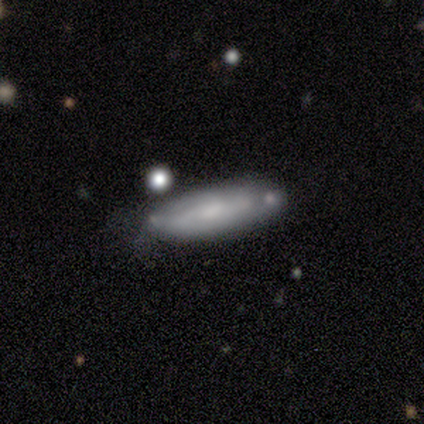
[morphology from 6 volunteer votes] smooth_or_featured: smooth (p=0.67) [alt: featured or disk p=0.33]
how_rounded: in between (p=0.50) [tied with: cigar-shaped p=0.50]
merging: none (p=0.50) [tied with: minor disturbance p=0.50]